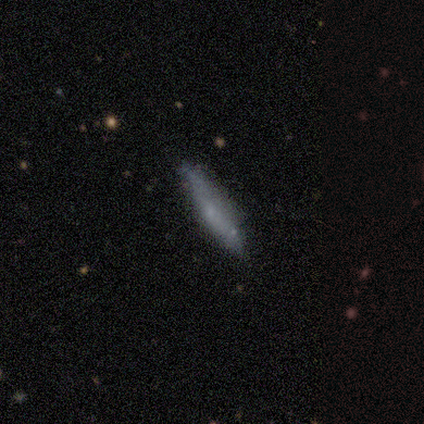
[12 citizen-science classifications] This is possibly a smooth galaxy (50%). How rounded: clearly cigar-shaped (100%). Merging: likely none (64%).